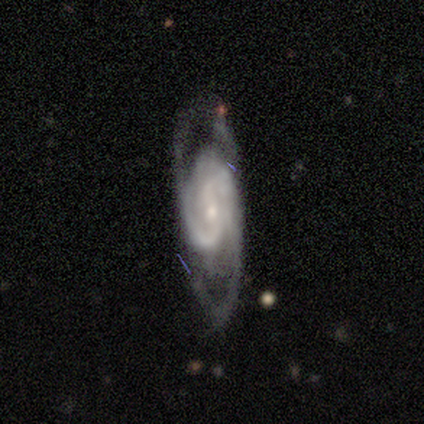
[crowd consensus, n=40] Overall: featured or disk (90%). Edge-on disk: no (92%). Bar: weak (45%; no 36%). Spiral arms: yes (100%). Spiral arm count: 2 (82%). Spiral winding: tight (48%; medium 36%). Bulge size: small (73%). Merging: none (68%).